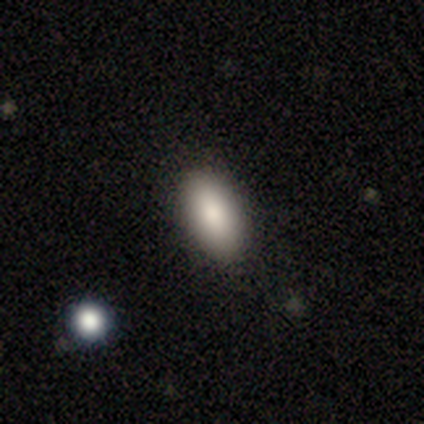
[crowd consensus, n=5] This appears to be a smooth galaxy with no disk features (80%) that is in between round and cigar-shaped (100%). Merging: none (100%).